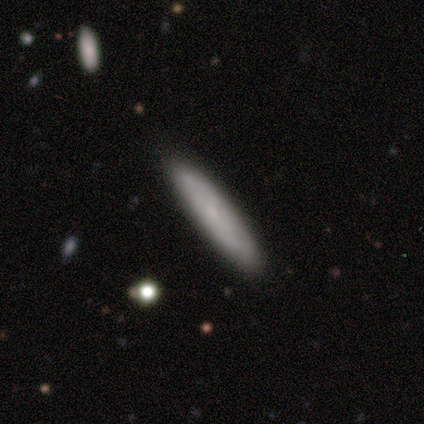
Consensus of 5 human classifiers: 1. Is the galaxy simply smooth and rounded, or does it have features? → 80% smooth, 20% featured or disk, 0% star or artifact.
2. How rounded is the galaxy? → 75% cigar-shaped, 25% in between, 0% round.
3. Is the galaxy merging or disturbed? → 80% none, 20% minor disturbance, 0% major disturbance, 0% merger.